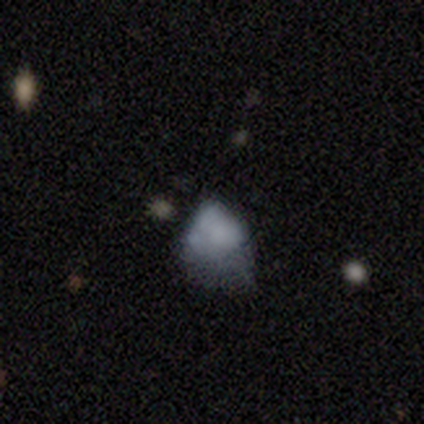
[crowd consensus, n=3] Smooth or featured: smooth — 33% (tied with featured or disk — 33%; star or artifact — 33%)
How rounded: in between — 100%
Merging: none — 50% (tied with minor disturbance — 50%)